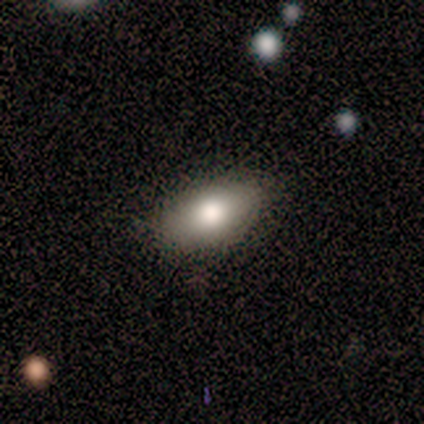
smooth-or-featured: smooth: 75% | featured or disk: 12% | star or artifact: 12%
  how-rounded: in between: 100% | round: 0% | cigar-shaped: 0%
  merging: none: 57% | minor disturbance: 43% | major disturbance: 0% | merger: 0%